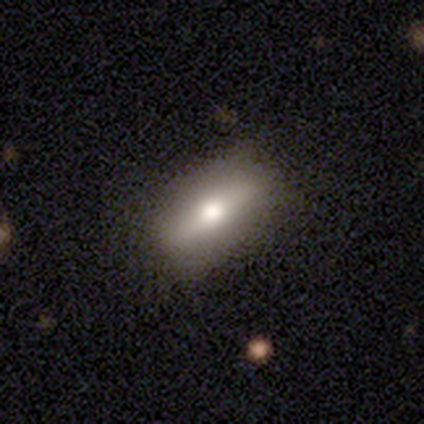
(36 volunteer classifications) Volunteers were most divided on "smooth or featured": featured or disk: 58%, smooth: 42%, star or artifact: 0%. More confident: merging — none (92%); edge-on bulge — rounded (81%); edge-on disk — yes (76%).